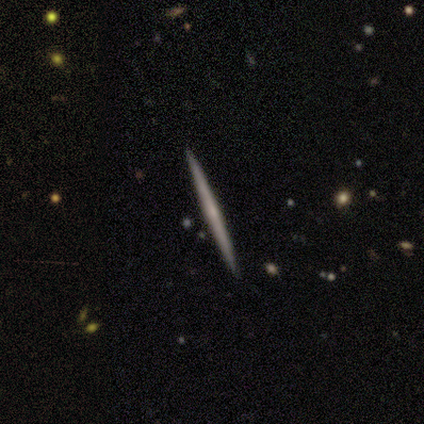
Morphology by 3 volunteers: A smooth galaxy with no disk features (67%) that is cigar-shaped (100%). Merging: none (100%).